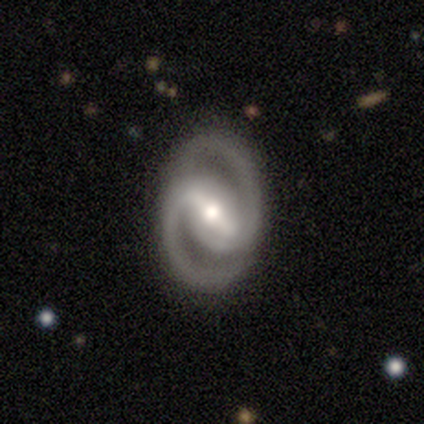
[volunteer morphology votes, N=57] A featured or disk galaxy (93%) with a strong bar (77%), 2 (98%) medium (53%) spiral arms (96%) and a moderate central bulge (72%). Merging: none (77%).